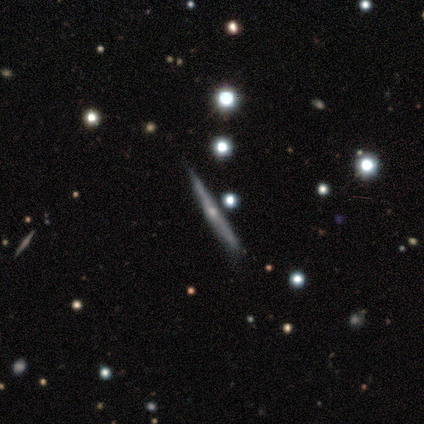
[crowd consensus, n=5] Overall: featured or disk (80%). Edge-on disk: yes (100%). Edge-on bulge: rounded (100%). Merging: none (80%).